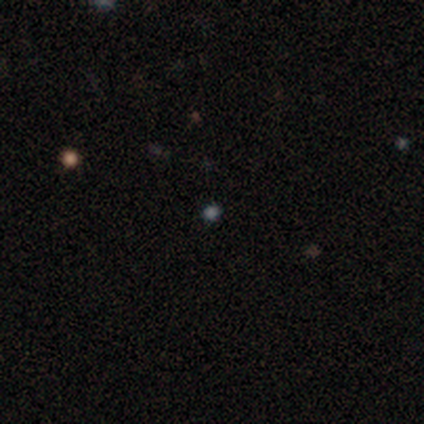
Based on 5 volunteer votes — Volunteers were most divided on "smooth or featured": star or artifact: 60%, smooth: 40%, featured or disk: 0%.